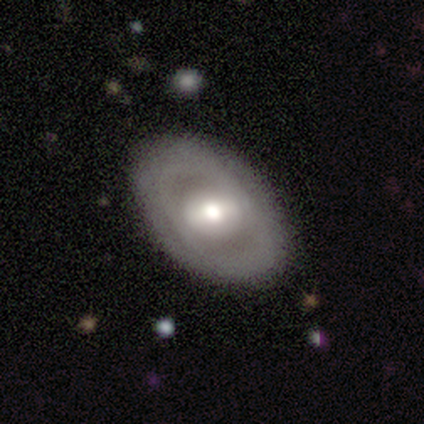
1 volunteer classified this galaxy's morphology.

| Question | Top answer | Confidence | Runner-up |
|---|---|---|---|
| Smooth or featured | featured or disk | 100% | — |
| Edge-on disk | no | 100% | — |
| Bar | strong | 100% | — |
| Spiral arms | no | 100% | — |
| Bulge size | large | 100% | — |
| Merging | minor disturbance | 100% | — |